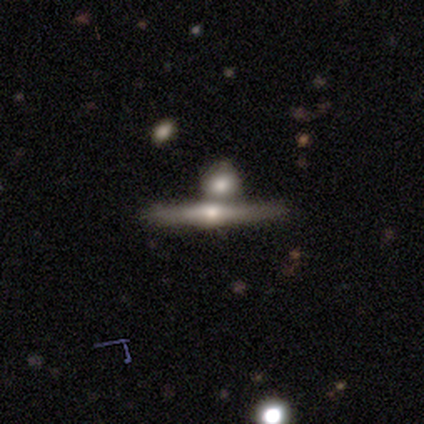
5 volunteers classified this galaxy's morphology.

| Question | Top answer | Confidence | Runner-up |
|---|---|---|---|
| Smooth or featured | featured or disk | 60% | smooth (20%) |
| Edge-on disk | yes | 100% | — |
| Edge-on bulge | rounded | 100% | — |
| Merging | none | 50% | minor disturbance (25%) |